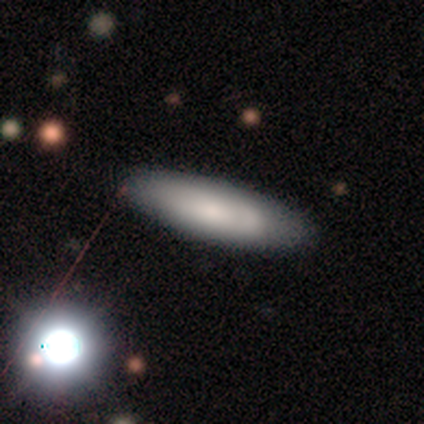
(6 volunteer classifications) Morphology: type=smooth (50%, tied with featured or disk); roundness=cigar-shaped (67%); merging=none (83%).